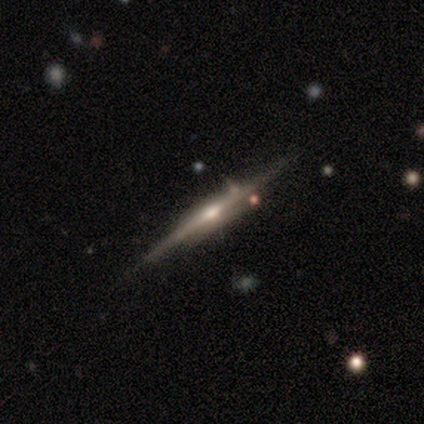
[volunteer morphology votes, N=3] Smooth or featured: featured or disk — 67% (smooth — 33%)
Edge-on disk: yes — 100%
Edge-on bulge: rounded — 100%
Merging: none — 100%